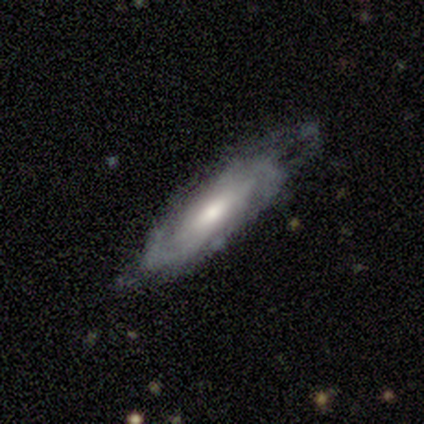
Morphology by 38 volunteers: Overall: featured or disk (79%). Edge-on disk: no (77%). Bar: no (52%; weak 43%). Spiral arms: yes (83%). Spiral arm count: can't tell (58%; 2 26%). Spiral winding: tight (63%). Bulge size: moderate (43%; small 30%). Merging: none (59%; minor disturbance 24%).